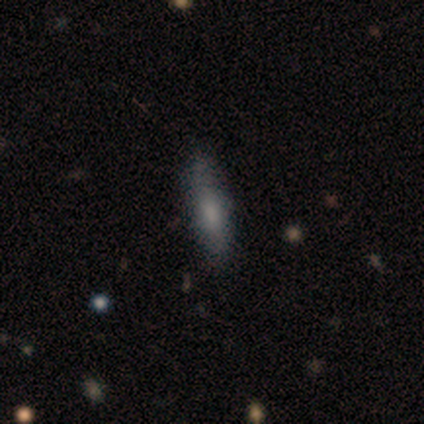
Morphology: type=smooth (50%, tied with featured or disk); roundness=cigar-shaped (100%); merging=none (100%).